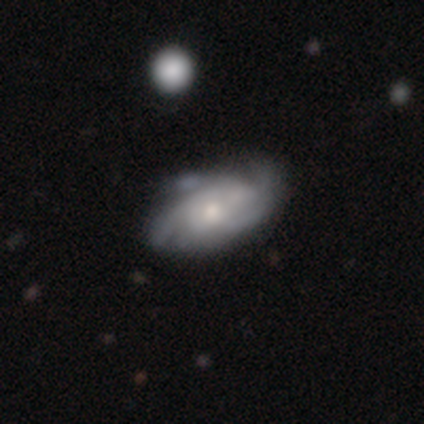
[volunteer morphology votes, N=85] Smooth or featured?
  - featured or disk: 71% *
  - smooth: 25%
  - star or artifact: 5%
Edge-on disk?
  - no: 95% *
  - yes: 5%
Bar?
  - no: 67% *
  - weak: 30%
  - strong: 4%
Spiral arms?
  - yes: 93% *
  - no: 7%
Spiral winding?
  - tight: 51% *
  - medium: 42%
  - loose: 8%
Spiral arm count?
  - can't tell: 36% *
  - 2: 28%
  - 3: 26%
  - 4: 8%
  - more than 4: 2%
  - 1: 0%
Bulge size?
  - small: 56% *
  - moderate: 42%
  - large: 2%
  - dominant: 0%
  - none: 0%
Merging?
  - none: 67% *
  - minor disturbance: 26%
  - major disturbance: 5%
  - merger: 2%